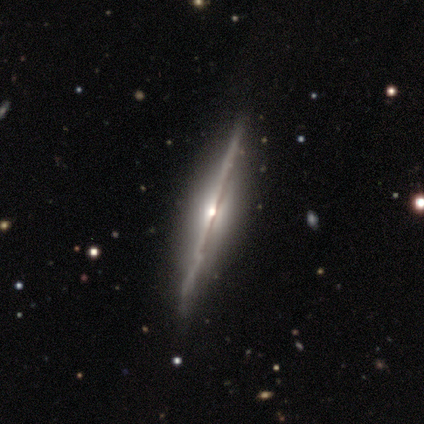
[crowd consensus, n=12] smooth_or_featured: featured or disk (p=0.92) [alt: star or artifact p=0.08]
disk_edge_on: yes (p=1.00)
edge_on_bulge: rounded (p=0.82) [alt: boxy p=0.09]
merging: none (p=0.82) [alt: minor disturbance p=0.09]